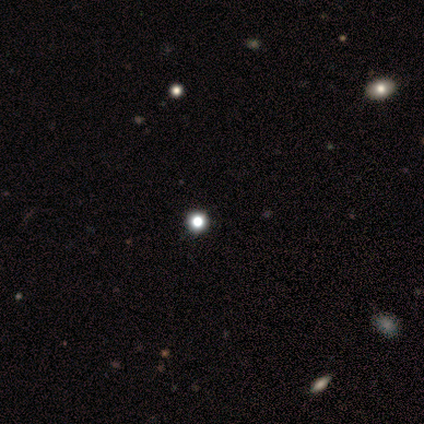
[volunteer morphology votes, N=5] Overall: smooth (60%; star or artifact 40%). How rounded: round (100%). Merging: none (100%).